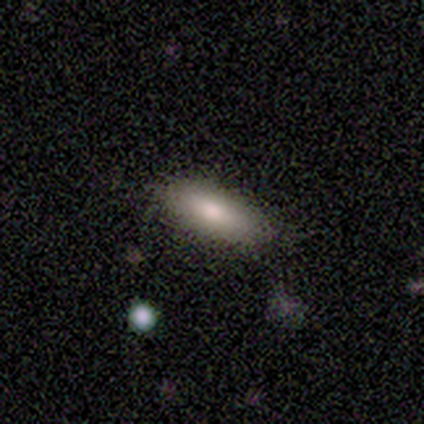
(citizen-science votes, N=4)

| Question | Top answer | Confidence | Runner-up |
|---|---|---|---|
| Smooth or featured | smooth | 50% | featured or disk (25%) |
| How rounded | in between | 50% | tied: cigar-shaped (50%) |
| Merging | none | 67% | minor disturbance (33%) |